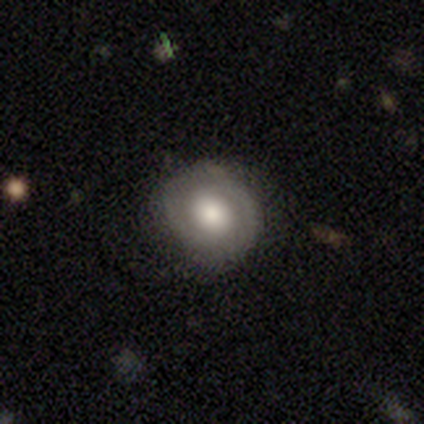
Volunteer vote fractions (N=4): smooth_or_featured: featured or disk (p=0.75) [alt: smooth p=0.25]
disk_edge_on: no (p=1.00)
bar: no (p=1.00)
has_spiral_arms: yes (p=1.00)
spiral_winding: tight (p=1.00)
spiral_arm_count: 2 (p=1.00)
bulge_size: dominant (p=0.33) [tied with: moderate p=0.33, small p=0.33]
merging: none (p=1.00)